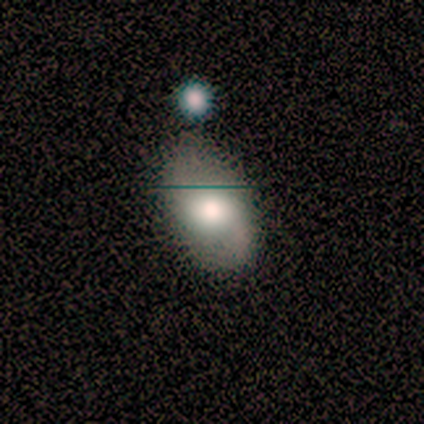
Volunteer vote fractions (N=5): A smooth galaxy with no disk features (60%) that is in between round and cigar-shaped (67%). Merging: none (100%).